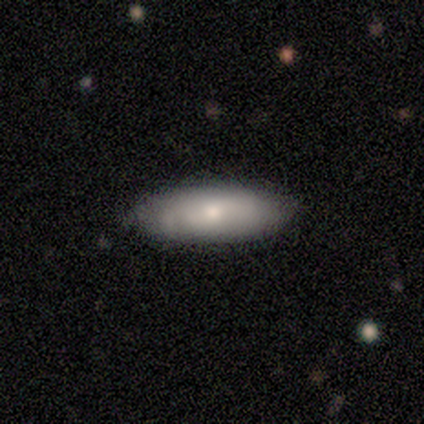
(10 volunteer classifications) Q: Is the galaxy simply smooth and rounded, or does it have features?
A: smooth — 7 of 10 (70%).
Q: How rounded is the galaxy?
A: in between — 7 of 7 (100%).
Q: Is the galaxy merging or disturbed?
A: none — 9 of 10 (90%).